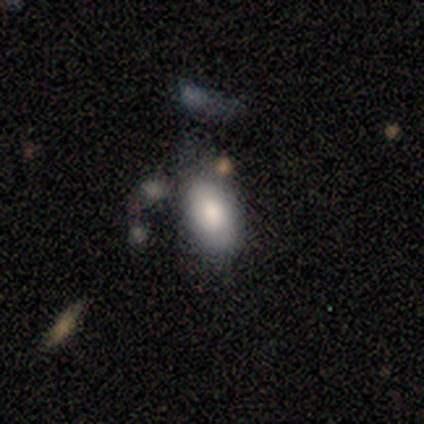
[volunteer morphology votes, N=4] Overall: smooth (75%). How rounded: in between (67%; round 33%). Merging: none (100%).